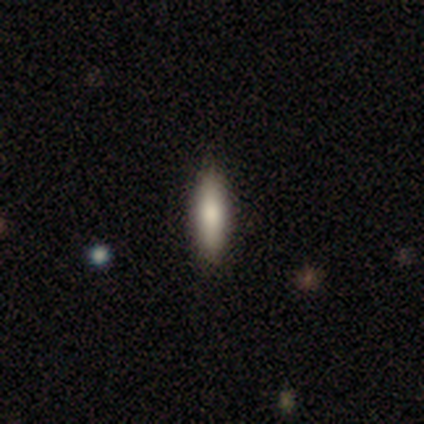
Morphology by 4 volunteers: smooth-or-featured: smooth: 100% | featured or disk: 0% | star or artifact: 0%
  how-rounded: in between: 50% (tied) | cigar-shaped: 50% (tied) | round: 0%
  merging: none: 100% | minor disturbance: 0% | major disturbance: 0% | merger: 0%